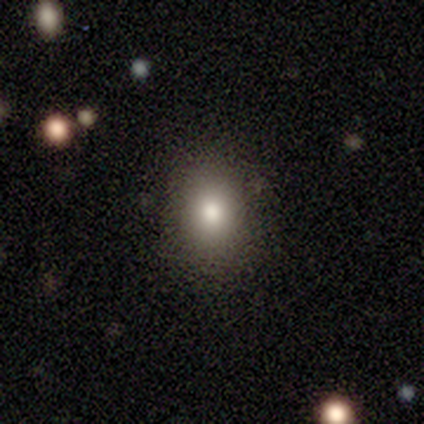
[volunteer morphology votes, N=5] Q: Smooth or featured?
A: smooth (100%)
Q: How rounded?
A: in between (60%); runner-up: round (40%)
Q: Merging?
A: none (80%); runner-up: major disturbance (20%)